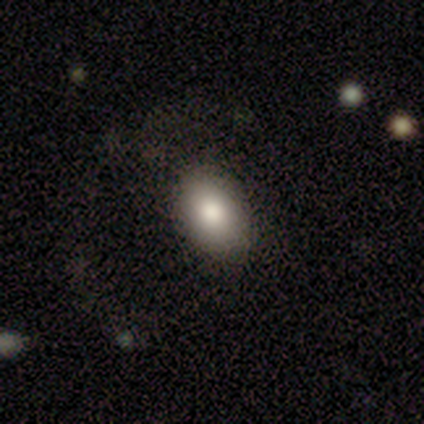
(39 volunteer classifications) Smooth or featured? smooth (79%)
How rounded? in between (87%)
Merging? none (76%)